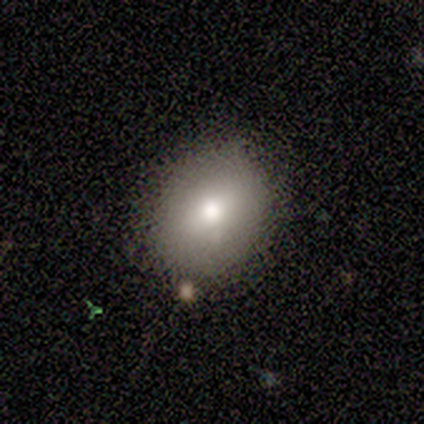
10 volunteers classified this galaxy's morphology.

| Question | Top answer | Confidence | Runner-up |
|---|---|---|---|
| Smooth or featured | smooth | 90% | featured or disk (10%) |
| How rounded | in between | 67% | round (33%) |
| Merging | none | 70% | minor disturbance (20%) |